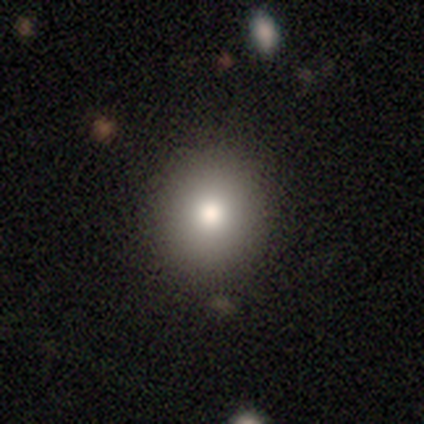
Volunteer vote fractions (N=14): This is possibly a smooth galaxy (57%). How rounded: clearly round (88%). Merging: clearly none (80%).